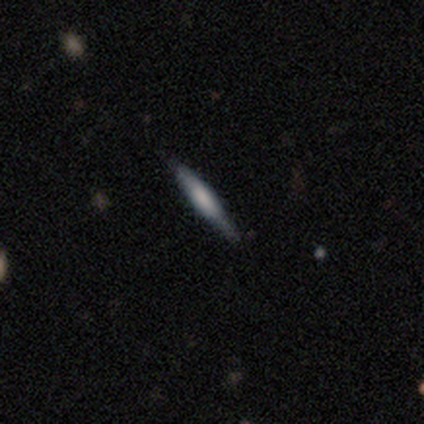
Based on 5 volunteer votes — Smooth or featured: featured or disk — 80% (smooth — 20%)
Edge-on disk: yes — 100%
Edge-on bulge: boxy — 50% (none — 25%)
Merging: none — 100%